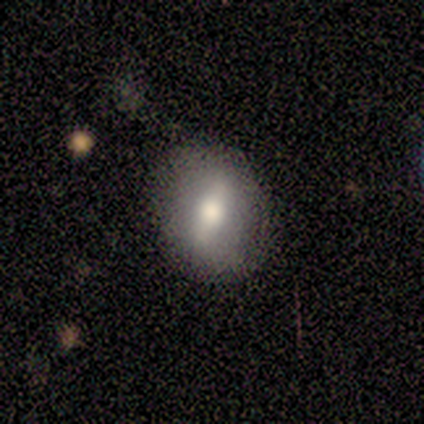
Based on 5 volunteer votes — Smooth or featured? smooth (80%)
How rounded? round (50%, tied with in between)
Merging? none (40%, tied with minor disturbance)